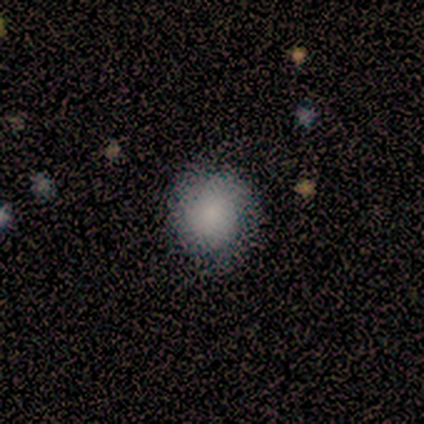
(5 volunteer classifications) Volunteers were most divided on "how rounded": round: 60%, in between: 40%, cigar-shaped: 0%. More confident: smooth or featured — smooth (100%); merging — none (80%).